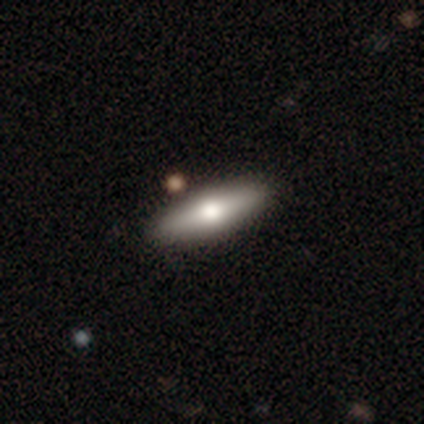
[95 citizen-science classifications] This appears to be a smooth galaxy with no disk features (62%) that is cigar-shaped (56%). Merging: none (89%).